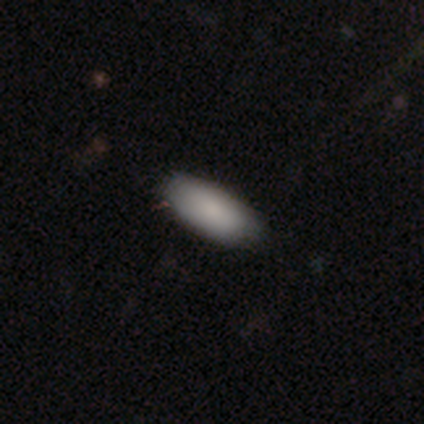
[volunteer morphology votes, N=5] A smooth galaxy with no disk features (100%) that is in between round and cigar-shaped (100%).

Vote fractions:
- Smooth or featured? smooth: 100% / featured or disk: 0% / star or artifact: 0%
- How rounded? in between: 100% / round: 0% / cigar-shaped: 0%
- Merging? none: 80% / minor disturbance: 20% / major disturbance: 0% / merger: 0%